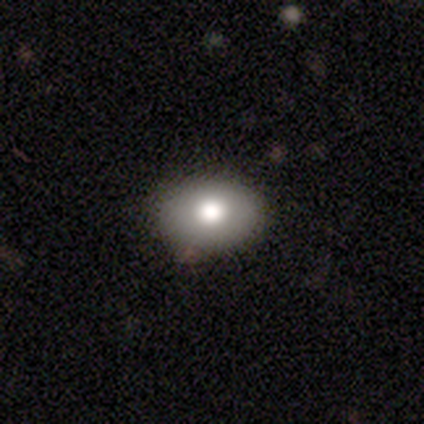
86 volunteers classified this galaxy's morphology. smooth 78%, featured or disk 14%, star or artifact 8%. Down the decision tree: how rounded — in between (87%); merging — none (86%).